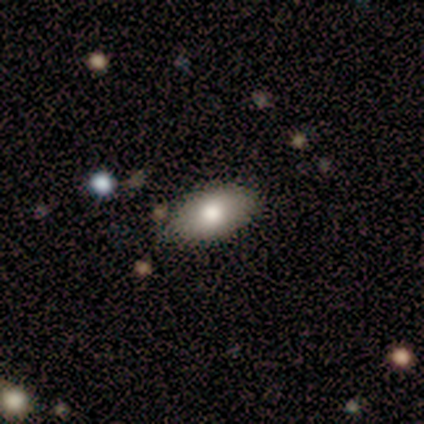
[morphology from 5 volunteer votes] smooth 100%, featured or disk 0%, star or artifact 0%. Down the decision tree: how rounded — in between (100%); merging — none (100%).